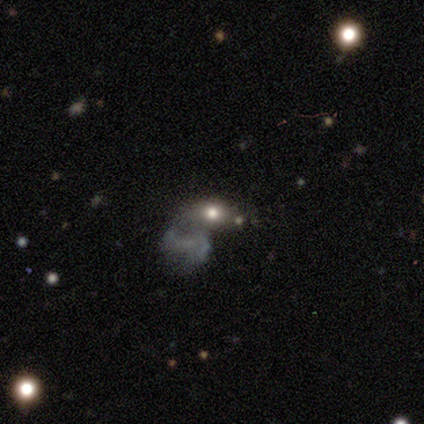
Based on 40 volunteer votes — A smooth galaxy with no disk features (48%) that is in between round and cigar-shaped (74%).

Vote fractions:
- Smooth or featured? smooth: 48% / star or artifact: 30% / featured or disk: 22%
- How rounded? in between: 74% / round: 16% / cigar-shaped: 11%
- Merging? major disturbance: 29% (tied) / merger: 29% (tied) / none: 25% / minor disturbance: 18%